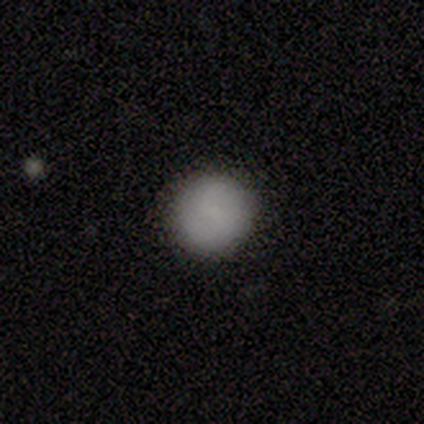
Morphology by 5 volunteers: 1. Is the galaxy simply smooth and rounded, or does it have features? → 80% smooth, 20% featured or disk, 0% star or artifact.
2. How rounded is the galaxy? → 100% round, 0% in between, 0% cigar-shaped.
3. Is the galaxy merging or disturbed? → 80% none, 20% minor disturbance, 0% major disturbance, 0% merger.